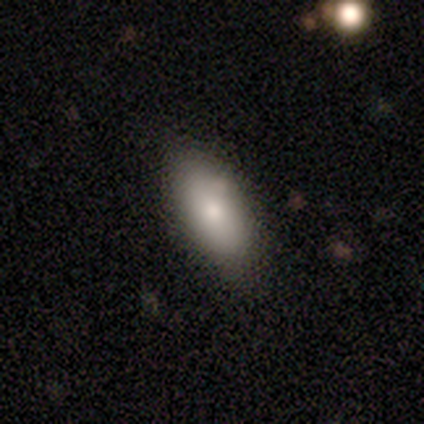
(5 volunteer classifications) smooth-or-featured: smooth: 80% | featured or disk: 20% | star or artifact: 0%
  how-rounded: in between: 100% | round: 0% | cigar-shaped: 0%
  merging: none: 100% | minor disturbance: 0% | major disturbance: 0% | merger: 0%